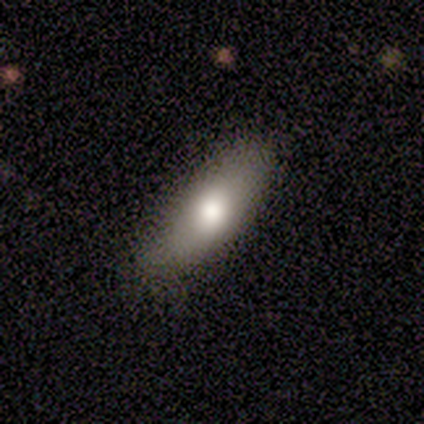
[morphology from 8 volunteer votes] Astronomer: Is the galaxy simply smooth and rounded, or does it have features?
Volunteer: smooth — 62%.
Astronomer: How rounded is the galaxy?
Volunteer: in between — 60% (runner-up: cigar-shaped, 40%).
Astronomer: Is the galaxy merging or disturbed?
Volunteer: none — 62%.